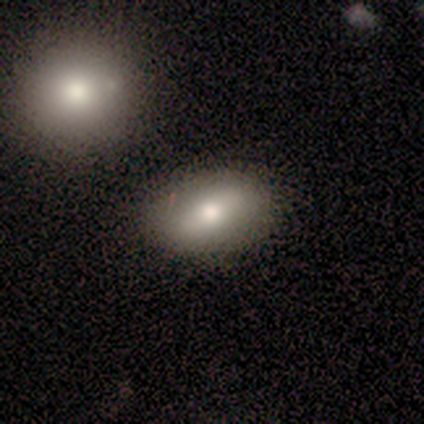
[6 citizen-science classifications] A smooth galaxy with no disk features (83%) that is in between round and cigar-shaped (80%).

Vote fractions:
- Smooth or featured? smooth: 83% / star or artifact: 17% / featured or disk: 0%
- How rounded? in between: 80% / cigar-shaped: 20% / round: 0%
- Merging? none: 80% / minor disturbance: 20% / major disturbance: 0% / merger: 0%